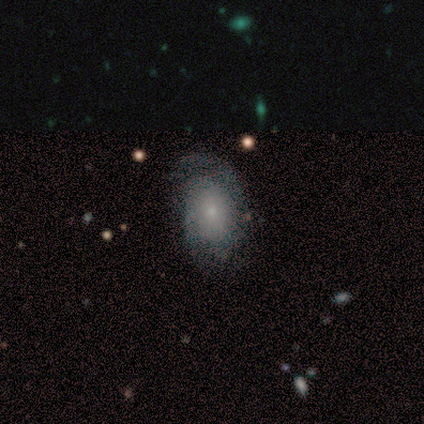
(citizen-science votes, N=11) Smooth or featured?
  - featured or disk: 91% *
  - smooth: 9%
  - star or artifact: 0%
Edge-on disk?
  - no: 100% *
  - yes: 0%
Bar?
  - no: 90% *
  - weak: 10%
  - strong: 0%
Spiral arms?
  - yes: 90% *
  - no: 10%
Spiral winding?
  - tight: 44% * (tied)
  - medium: 44% * (tied)
  - loose: 11%
Spiral arm count?
  - 2: 56% *
  - 1: 22%
  - 4: 11%
  - can't tell: 11%
  - 3: 0%
  - more than 4: 0%
Bulge size?
  - small: 70% *
  - moderate: 20%
  - large: 10%
  - dominant: 0%
  - none: 0%
Merging?
  - none: 55% *
  - minor disturbance: 27%
  - major disturbance: 18%
  - merger: 0%